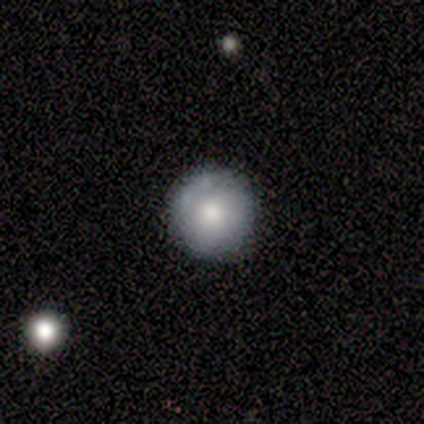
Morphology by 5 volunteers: Smooth or featured? 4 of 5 (80%) said smooth. How rounded? 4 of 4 (100%) said round. Merging? 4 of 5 (80%) said none.